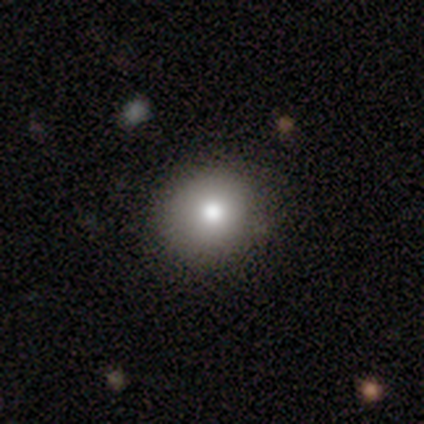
smooth 84%, featured or disk 8%, star or artifact 8%. Down the decision tree: how rounded — round (94%); merging — none (91%).